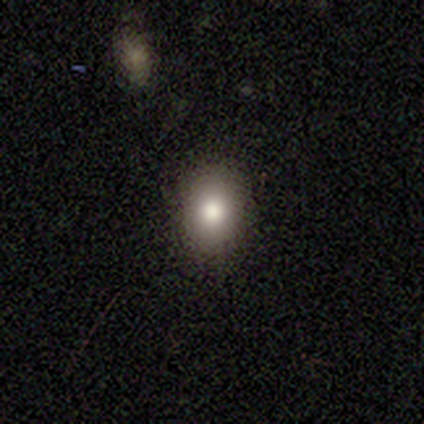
A smooth galaxy with no disk features (78%) that is in between round and cigar-shaped (52%).

Vote fractions:
- Smooth or featured? smooth: 78% / star or artifact: 19% / featured or disk: 3%
- How rounded? in between: 52% / round: 48% / cigar-shaped: 0%
- Merging? none: 93% / minor disturbance: 7% / major disturbance: 0% / merger: 0%